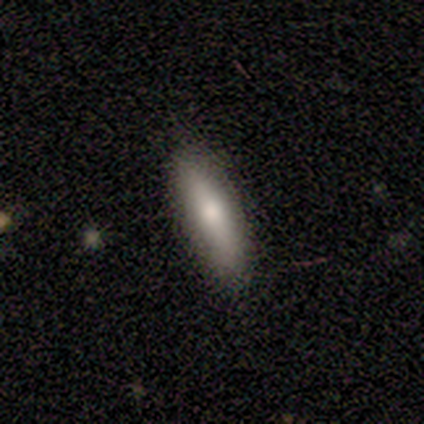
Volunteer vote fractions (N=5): This appears to be a smooth galaxy with no disk features (80%) that is cigar-shaped (75%). Merging: none (75%).